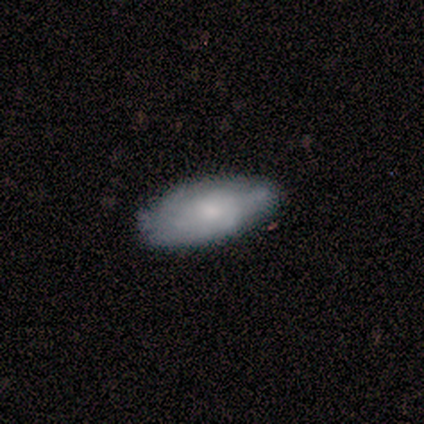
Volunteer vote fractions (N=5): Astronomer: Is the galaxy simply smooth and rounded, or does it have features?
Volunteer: smooth — 60% (runner-up: featured or disk, 40%).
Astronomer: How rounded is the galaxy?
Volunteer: in between — 100%.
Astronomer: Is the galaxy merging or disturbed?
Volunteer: minor disturbance — 60% (runner-up: none, 40%).